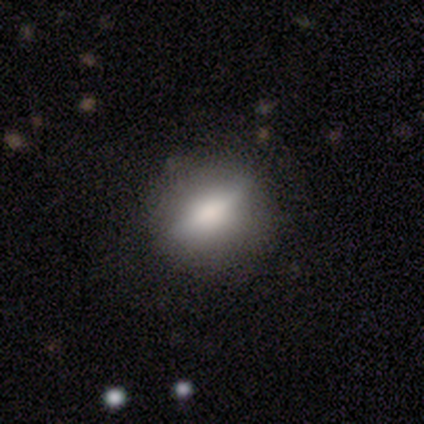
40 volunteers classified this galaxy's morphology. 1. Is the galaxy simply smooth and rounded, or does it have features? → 62% smooth, 30% featured or disk, 8% star or artifact.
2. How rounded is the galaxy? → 60% in between, 32% round, 8% cigar-shaped.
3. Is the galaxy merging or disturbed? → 81% none, 19% minor disturbance, 0% major disturbance, 0% merger.